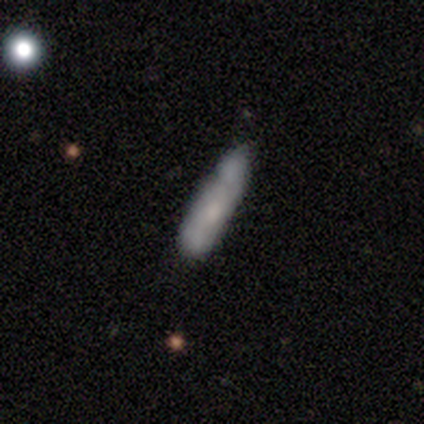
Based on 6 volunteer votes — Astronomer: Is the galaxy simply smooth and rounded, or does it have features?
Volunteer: smooth — 67%.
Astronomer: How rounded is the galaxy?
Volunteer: in between — 50%, tied with cigar-shaped at 50%.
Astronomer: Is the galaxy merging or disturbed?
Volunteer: none — 67%.